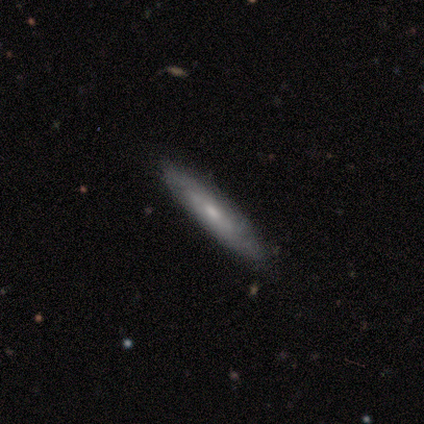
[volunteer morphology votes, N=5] Smooth or featured: featured or disk — 60% (smooth — 40%)
Edge-on disk: no — 100%
Bar: weak — 67% (no — 33%)
Spiral arms: yes — 100%
Spiral winding: medium — 67% (tight — 33%)
Spiral arm count: can't tell — 100%
Bulge size: small — 67% (moderate — 33%)
Merging: none — 100%